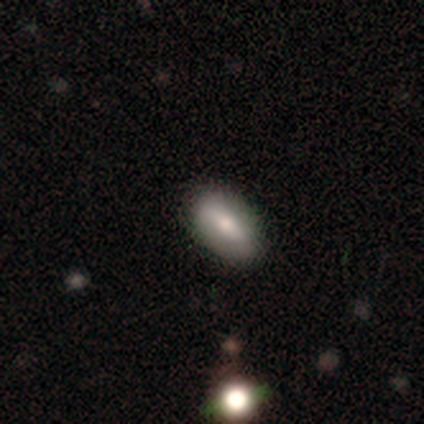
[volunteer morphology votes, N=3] Volunteers were most divided on "smooth or featured" (3-way tie): smooth: 33%, featured or disk: 33%, star or artifact: 33%. More confident: how rounded — in between (100%); merging — none (100%).